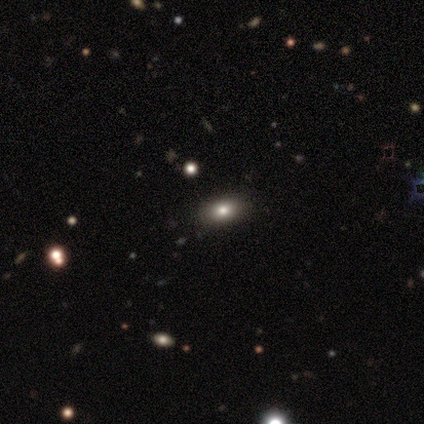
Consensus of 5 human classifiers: Q: Smooth or featured?
A: smooth (60%); runner-up: star or artifact (40%)
Q: How rounded?
A: in between (100%)
Q: Merging?
A: none (100%)